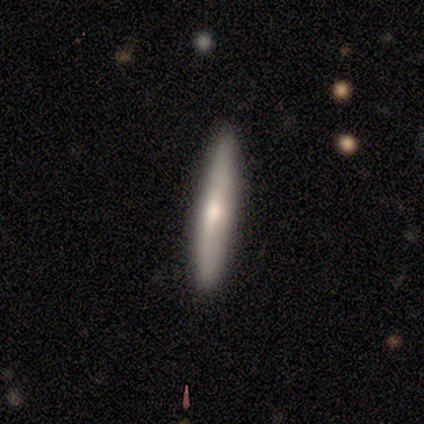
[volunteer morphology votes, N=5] Overall: featured or disk (60%; smooth 20%). Edge-on disk: yes (100%). Edge-on bulge: rounded (100%). Merging: none (75%).